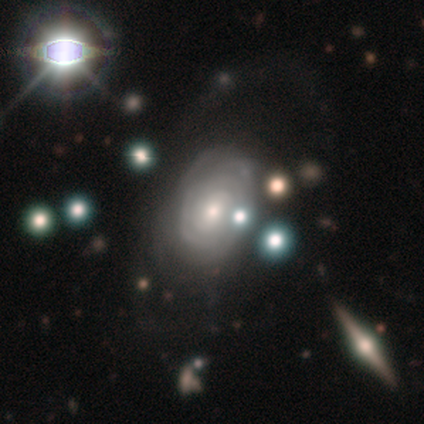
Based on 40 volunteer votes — Smooth or featured? 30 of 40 (75%) said featured or disk. Edge-on disk? 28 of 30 (93%) said no. Bar? 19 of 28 (68%) said no. Spiral arms? 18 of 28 (64%) said yes. Spiral winding? 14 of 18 (78%) said tight. Spiral arm count? 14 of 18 (78%) said can't tell. Bulge size? 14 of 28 (50%) said small. Merging? 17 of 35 (49%) said none.